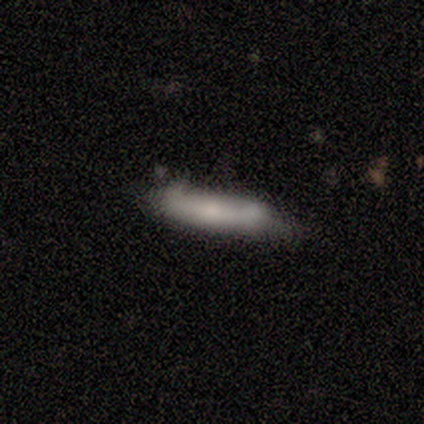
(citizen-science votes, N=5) A smooth galaxy with no disk features (60%) that is in between round and cigar-shaped (67%).

Vote fractions:
- Smooth or featured? smooth: 60% / featured or disk: 40% / star or artifact: 0%
- How rounded? in between: 67% / cigar-shaped: 33% / round: 0%
- Merging? minor disturbance: 80% / none: 20% / major disturbance: 0% / merger: 0%